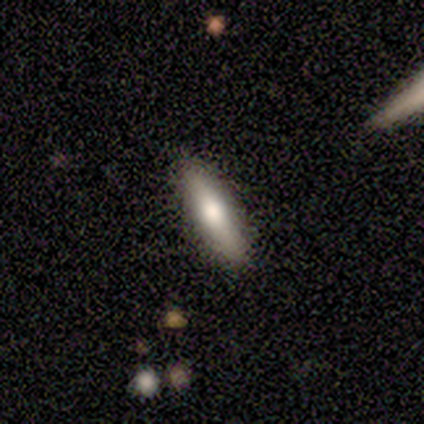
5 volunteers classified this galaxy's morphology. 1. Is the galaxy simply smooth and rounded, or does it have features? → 60% smooth, 40% featured or disk, 0% star or artifact.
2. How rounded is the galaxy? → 67% cigar-shaped, 33% in between, 0% round.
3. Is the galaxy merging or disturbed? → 100% none, 0% minor disturbance, 0% major disturbance, 0% merger.